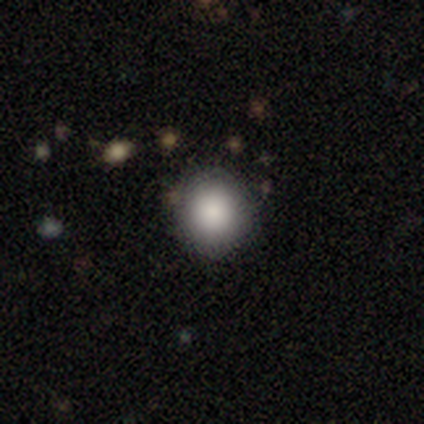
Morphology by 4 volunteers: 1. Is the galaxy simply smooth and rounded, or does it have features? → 100% smooth, 0% featured or disk, 0% star or artifact.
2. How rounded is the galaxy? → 100% round, 0% in between, 0% cigar-shaped.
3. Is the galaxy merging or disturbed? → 75% none, 25% merger, 0% minor disturbance, 0% major disturbance.